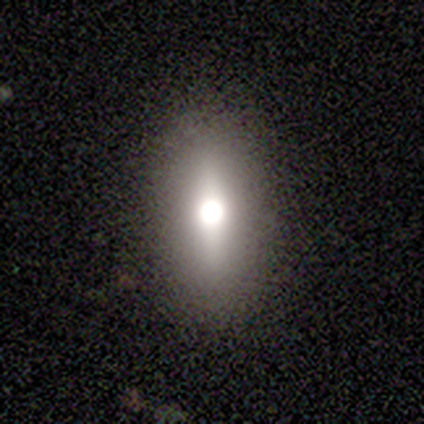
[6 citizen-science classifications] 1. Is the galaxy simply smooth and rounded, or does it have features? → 50% smooth (tied), 50% featured or disk (tied), 0% star or artifact.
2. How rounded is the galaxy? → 100% in between, 0% round, 0% cigar-shaped.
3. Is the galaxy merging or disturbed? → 100% none, 0% minor disturbance, 0% major disturbance, 0% merger.